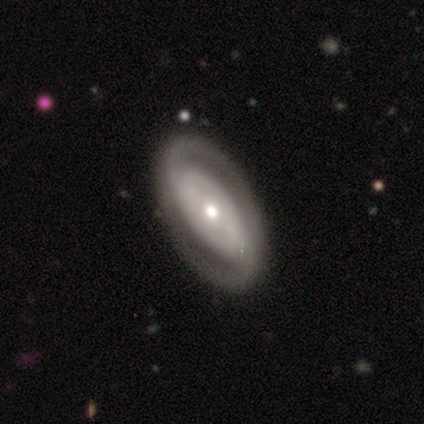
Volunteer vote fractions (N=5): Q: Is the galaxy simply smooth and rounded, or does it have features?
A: featured or disk — 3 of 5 (60%).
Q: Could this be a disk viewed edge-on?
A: no — 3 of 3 (100%).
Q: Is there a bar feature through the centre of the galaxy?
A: no — 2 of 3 (67%).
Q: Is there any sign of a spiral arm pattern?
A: yes — 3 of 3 (100%).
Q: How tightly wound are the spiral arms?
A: tight — 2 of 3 (67%).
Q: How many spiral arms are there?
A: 2 — 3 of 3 (100%).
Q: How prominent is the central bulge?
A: moderate — 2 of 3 (67%).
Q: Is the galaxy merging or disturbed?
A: none — 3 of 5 (60%).